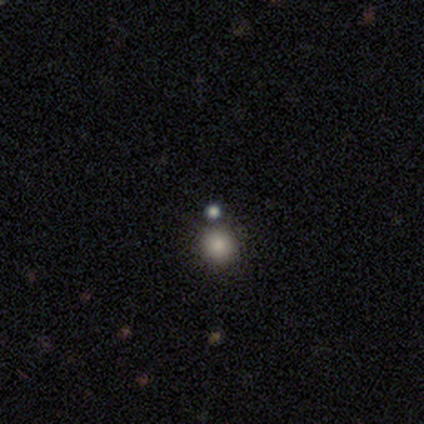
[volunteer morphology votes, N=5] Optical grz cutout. It shows a smooth galaxy with no disk features (100%) that is round (100%). Merging: none (80%).